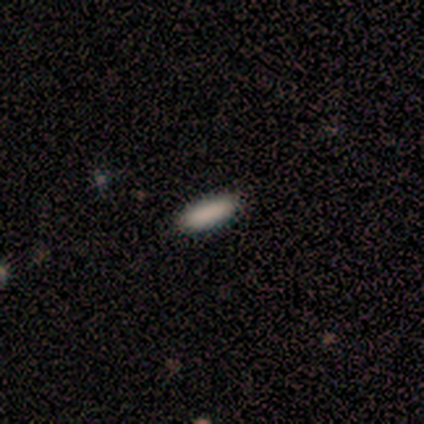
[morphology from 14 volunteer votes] smooth-or-featured: smooth: 86% | star or artifact: 14% | featured or disk: 0%
  how-rounded: in between: 58% | cigar-shaped: 42% | round: 0%
  merging: none: 83% | minor disturbance: 17% | major disturbance: 0% | merger: 0%